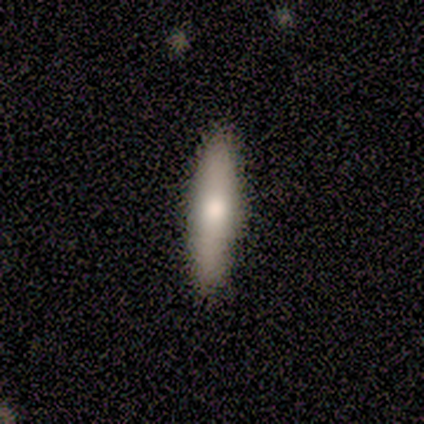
smooth-or-featured: smooth: 40% (tied) | featured or disk: 40% (tied) | star or artifact: 20%
  how-rounded: cigar-shaped: 100% | round: 0% | in between: 0%
  merging: none: 75% | minor disturbance: 25% | major disturbance: 0% | merger: 0%